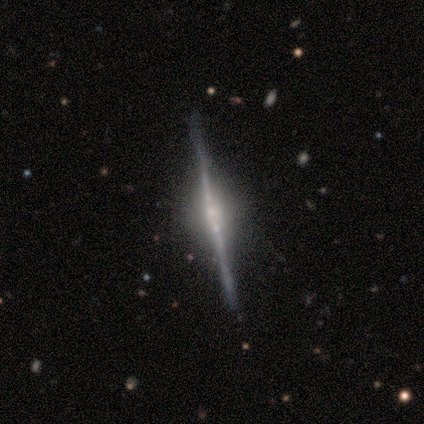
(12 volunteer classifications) A featured or disk galaxy (100%) viewed edge-on (92%) with a rounded central bulge (64%). Merging: none (83%).